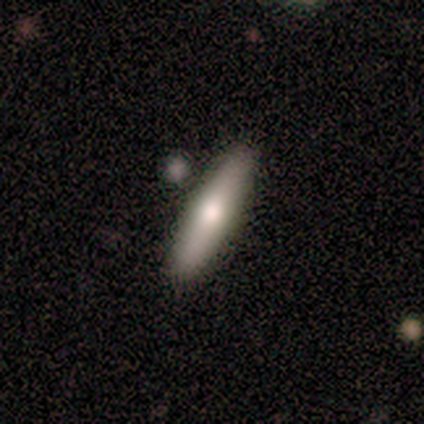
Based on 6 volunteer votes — Smooth or featured? smooth (83%)
How rounded? cigar-shaped (100%)
Merging? none (100%)